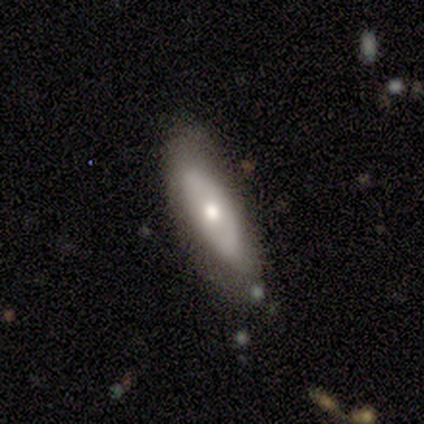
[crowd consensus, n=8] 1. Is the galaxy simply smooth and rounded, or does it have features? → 62% featured or disk, 38% smooth, 0% star or artifact.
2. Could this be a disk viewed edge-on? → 80% no, 20% yes.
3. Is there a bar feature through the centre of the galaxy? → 100% no, 0% strong, 0% weak.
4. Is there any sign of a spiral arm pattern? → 75% no, 25% yes.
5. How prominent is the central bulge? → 100% moderate, 0% dominant, 0% large, 0% small, 0% none.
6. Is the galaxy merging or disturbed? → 75% none, 25% minor disturbance, 0% major disturbance, 0% merger.